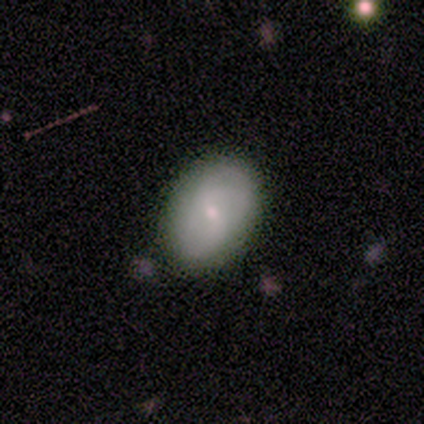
This is clearly a smooth galaxy (83%). How rounded: clearly in between (80%). Merging: clearly none (83%).